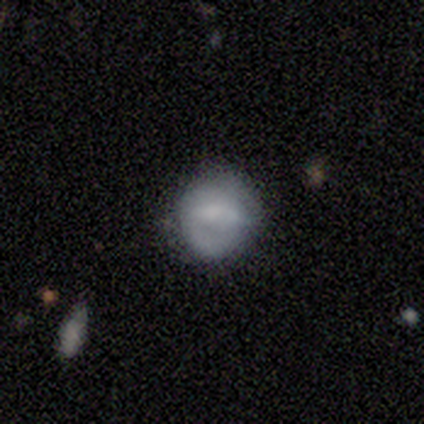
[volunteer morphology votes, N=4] featured or disk 50%, smooth 25%, star or artifact 25%. Down the decision tree: edge-on disk — no (100%); bar — no (100%); spiral arms — yes (100%); spiral arm count — 2 (100%); spiral winding — medium (100%); bulge size — small (100%); merging — none (67%).